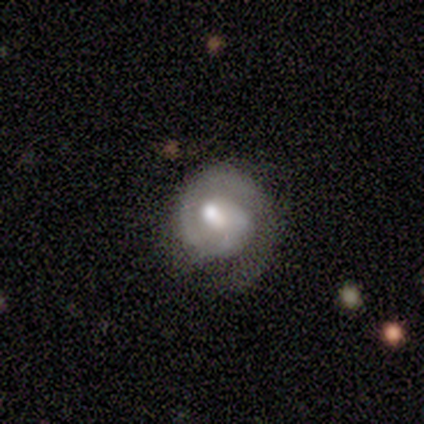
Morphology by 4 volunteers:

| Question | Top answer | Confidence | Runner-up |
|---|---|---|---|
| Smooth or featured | featured or disk | 100% | — |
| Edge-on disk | no | 100% | — |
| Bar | no | 75% | weak (25%) |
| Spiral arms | yes | 100% | — |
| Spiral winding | tight | 100% | — |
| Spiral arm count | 1 | 100% | — |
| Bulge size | moderate | 75% | large (25%) |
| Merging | minor disturbance | 50% | none (25%) |